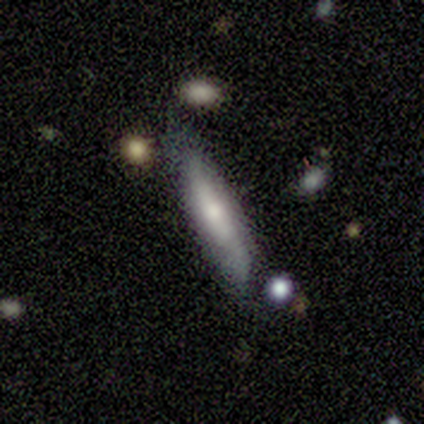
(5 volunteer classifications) Overall: smooth (60%; featured or disk 40%). How rounded: cigar-shaped (67%; in between 33%). Merging: none (60%; minor disturbance 40%).